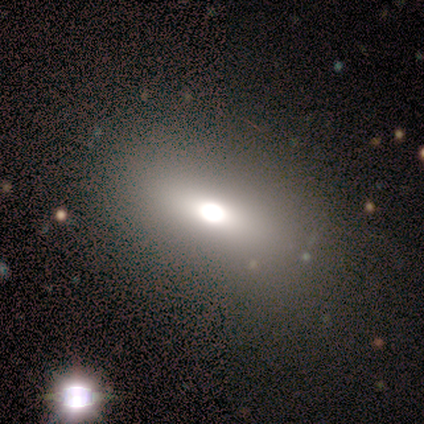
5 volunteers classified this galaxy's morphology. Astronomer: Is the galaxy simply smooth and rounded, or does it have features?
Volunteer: smooth — 60% (runner-up: featured or disk, 40%).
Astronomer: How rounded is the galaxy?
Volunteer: in between — 100%.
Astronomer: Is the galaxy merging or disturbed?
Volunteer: none — 80%.